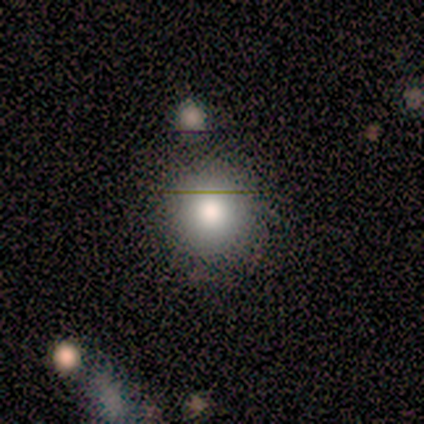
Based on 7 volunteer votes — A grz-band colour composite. It shows a smooth galaxy with no disk features (71%) that is round (100%). Merging: none (50%, tied with merger).